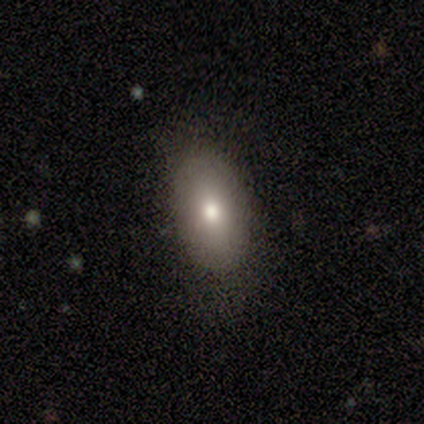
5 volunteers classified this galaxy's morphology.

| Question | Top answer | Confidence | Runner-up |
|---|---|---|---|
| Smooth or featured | smooth | 40% | tied: star or artifact (40%) |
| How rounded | in between | 100% | — |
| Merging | none | 67% | minor disturbance (33%) |